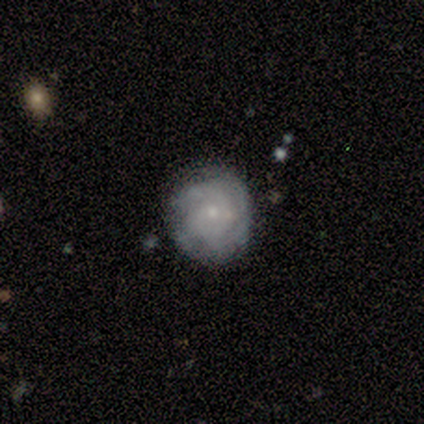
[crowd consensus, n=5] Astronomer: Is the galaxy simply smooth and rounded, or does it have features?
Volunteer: featured or disk — 80%.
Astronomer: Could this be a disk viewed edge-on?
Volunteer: no — 100%.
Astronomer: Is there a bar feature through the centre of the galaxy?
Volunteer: no — 75%.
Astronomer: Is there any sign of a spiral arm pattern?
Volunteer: yes — 75%.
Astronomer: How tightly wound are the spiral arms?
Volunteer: tight — 67%.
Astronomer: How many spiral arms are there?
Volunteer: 3 — 67%.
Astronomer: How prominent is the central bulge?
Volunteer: small — 75%.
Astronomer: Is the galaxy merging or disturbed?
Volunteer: none — 100%.